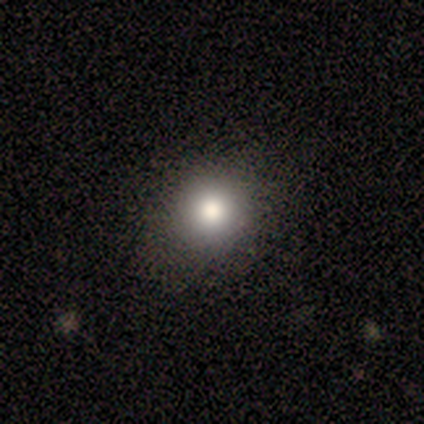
Overall: smooth (85%). How rounded: round (79%). Merging: none (89%).